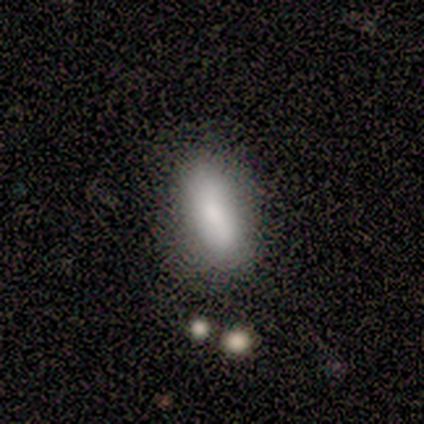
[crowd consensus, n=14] A smooth galaxy with no disk features (93%) that is in between round and cigar-shaped (69%).

Vote fractions:
- Smooth or featured? smooth: 93% / star or artifact: 7% / featured or disk: 0%
- How rounded? in between: 69% / cigar-shaped: 31% / round: 0%
- Merging? none: 77% / minor disturbance: 23% / major disturbance: 0% / merger: 0%